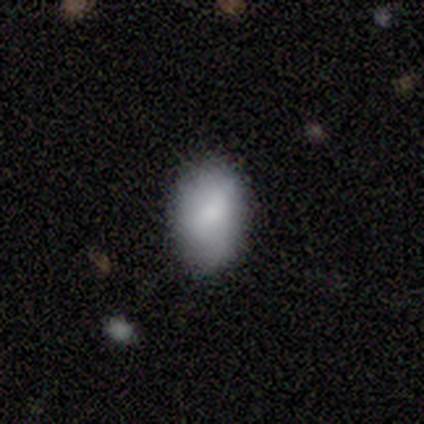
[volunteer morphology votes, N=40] A smooth galaxy with no disk features (82%) that is in between round and cigar-shaped (88%).

Vote fractions:
- Smooth or featured? smooth: 82% / featured or disk: 18% / star or artifact: 0%
- How rounded? in between: 88% / round: 9% / cigar-shaped: 3%
- Merging? none: 80% / minor disturbance: 15% / major disturbance: 5% / merger: 0%